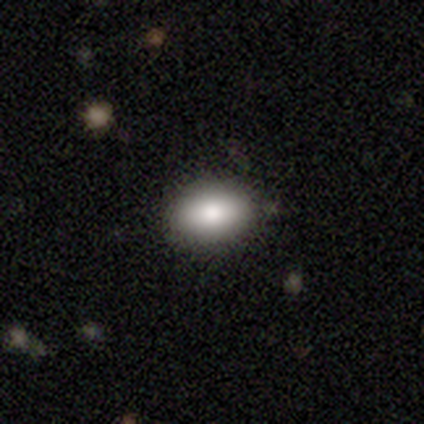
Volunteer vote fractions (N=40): Smooth or featured: smooth — 80% (featured or disk — 10%)
How rounded: in between — 94% (round — 3%)
Merging: none — 97% (merger — 3%)